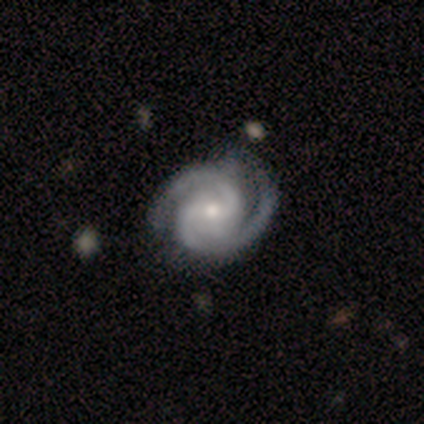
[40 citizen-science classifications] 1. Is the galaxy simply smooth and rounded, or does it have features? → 100% featured or disk, 0% smooth, 0% star or artifact.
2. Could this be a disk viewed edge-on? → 100% no, 0% yes.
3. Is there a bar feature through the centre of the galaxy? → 55% weak, 28% no, 18% strong.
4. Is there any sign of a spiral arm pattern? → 100% yes, 0% no.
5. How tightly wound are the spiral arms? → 57% tight, 42% medium, 0% loose.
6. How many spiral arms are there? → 57% 2, 35% 3, 8% can't tell, 0% 1, 0% 4, 0% more than 4.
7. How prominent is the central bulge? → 52% moderate, 45% small, 2% none, 0% dominant, 0% large.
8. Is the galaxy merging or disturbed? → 55% none, 12% minor disturbance, 5% major disturbance, 0% merger.